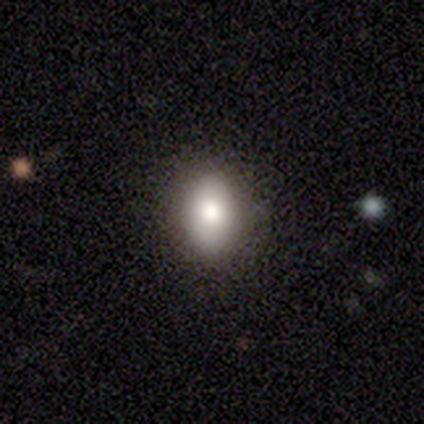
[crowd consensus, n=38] smooth_or_featured: smooth (p=0.79) [alt: featured or disk p=0.16]
how_rounded: in between (p=0.63) [alt: round p=0.33]
merging: none (p=0.83) [alt: minor disturbance p=0.17]